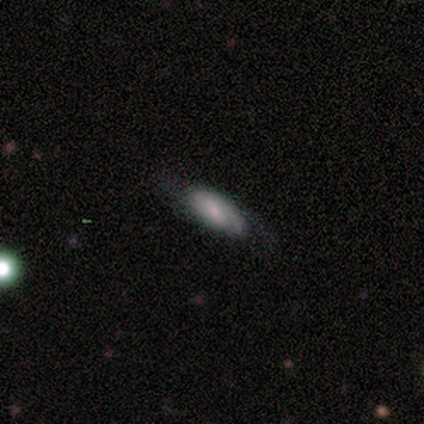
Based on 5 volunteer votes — Smooth or featured?
  - smooth: 80% *
  - featured or disk: 20%
  - star or artifact: 0%
How rounded?
  - in between: 75% *
  - cigar-shaped: 25%
  - round: 0%
Merging?
  - none: 100% *
  - minor disturbance: 0%
  - major disturbance: 0%
  - merger: 0%